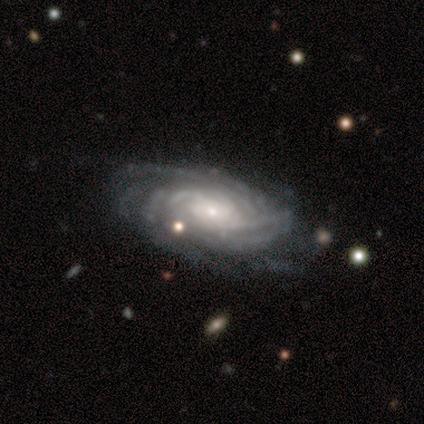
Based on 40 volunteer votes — featured or disk 92%, star or artifact 5%, smooth 2%. Down the decision tree: edge-on disk — no (97%); bar — no (72%); spiral arms — yes (94%); spiral arm count — can't tell (56%); spiral winding — tight (76%); bulge size — small (72%); merging — none (74%).